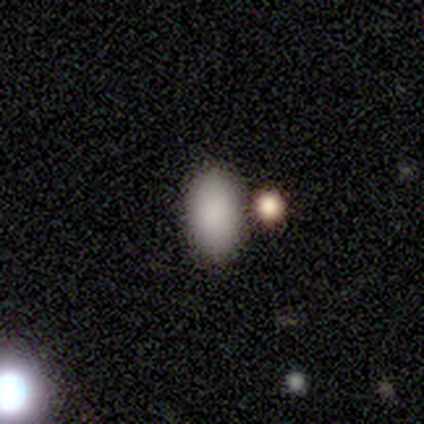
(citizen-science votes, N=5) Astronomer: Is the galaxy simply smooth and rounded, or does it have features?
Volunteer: smooth — 60% (runner-up: star or artifact, 40%).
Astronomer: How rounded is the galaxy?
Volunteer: in between — 100%.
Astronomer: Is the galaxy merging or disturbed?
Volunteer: none — 67%.